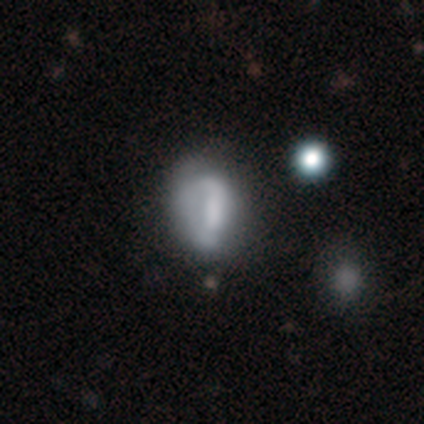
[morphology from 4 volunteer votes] This is likely a featured or disk galaxy (75%). It is clearly not viewed edge-on (100%). Bar: marginally strong (33%, tied with weak and no). Spiral arm pattern: clearly no (100%). Central bulge: likely none (67%). Merging: possibly none (50%).